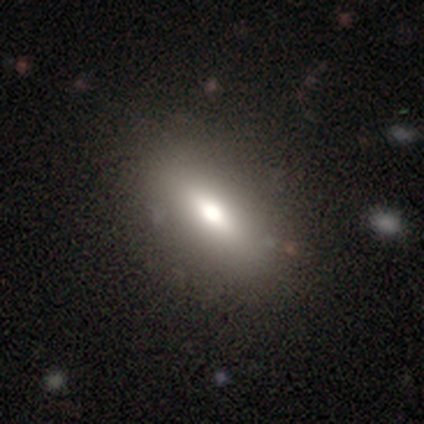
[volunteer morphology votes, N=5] type=smooth (80%); roundness=in between (100%); merging=none (75%).